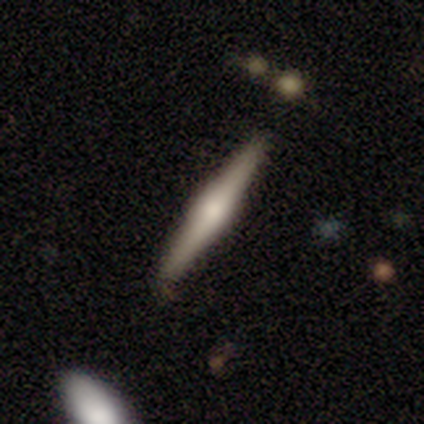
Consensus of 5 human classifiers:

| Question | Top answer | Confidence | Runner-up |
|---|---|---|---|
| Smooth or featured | featured or disk | 80% | smooth (20%) |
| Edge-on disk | yes | 100% | — |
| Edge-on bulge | rounded | 75% | boxy (25%) |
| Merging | none | 100% | — |